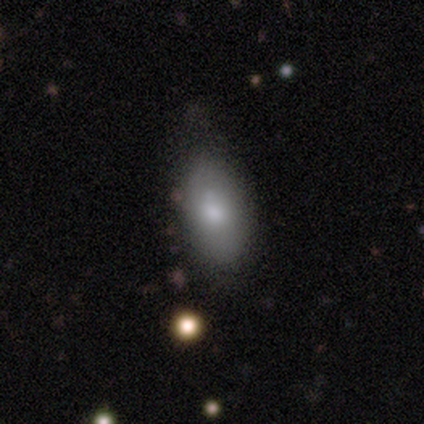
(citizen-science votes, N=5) A smooth galaxy with no disk features (60%) that is in between round and cigar-shaped (100%). Merging: none (80%).